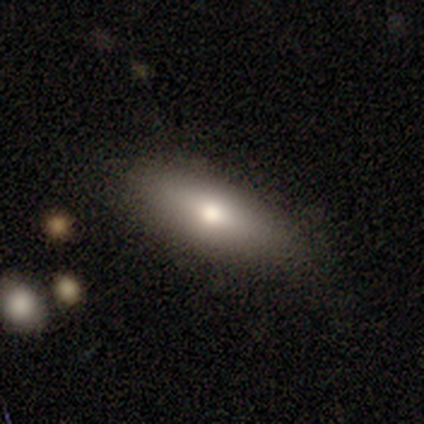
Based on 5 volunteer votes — smooth-or-featured: smooth: 40% (tied) | featured or disk: 40% (tied) | star or artifact: 20%
  how-rounded: in between: 50% (tied) | cigar-shaped: 50% (tied) | round: 0%
  merging: none: 75% | minor disturbance: 25% | major disturbance: 0% | merger: 0%